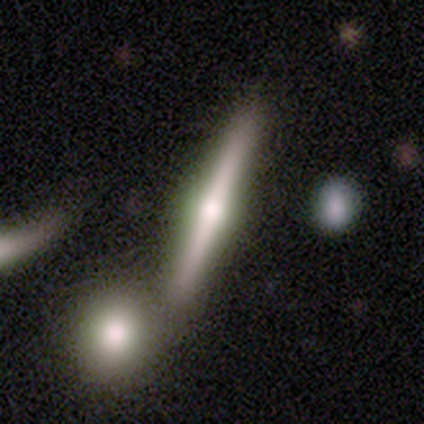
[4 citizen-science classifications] Q: Smooth or featured?
A: featured or disk (75%); runner-up: smooth (25%)
Q: Edge-on disk?
A: yes (100%)
Q: Edge-on bulge?
A: rounded (100%)
Q: Merging?
A: none (75%); runner-up: minor disturbance (25%)